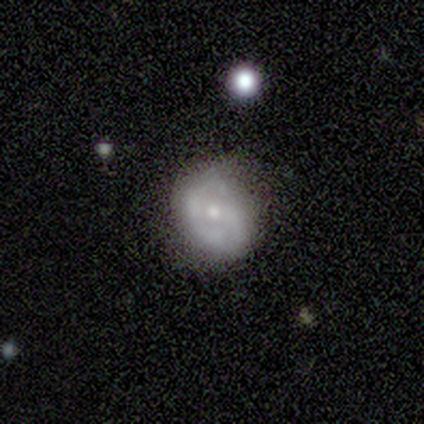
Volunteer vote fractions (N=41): Smooth or featured? 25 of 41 (61%) said featured or disk. Edge-on disk? 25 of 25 (100%) said no. Bar? 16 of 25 (64%) said no. Spiral arms? 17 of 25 (68%) said yes. Spiral winding? 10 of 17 (59%) said tight. Spiral arm count? 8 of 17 (47%) said can't tell. Bulge size? 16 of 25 (64%) said small. Merging? 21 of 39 (54%) said none.